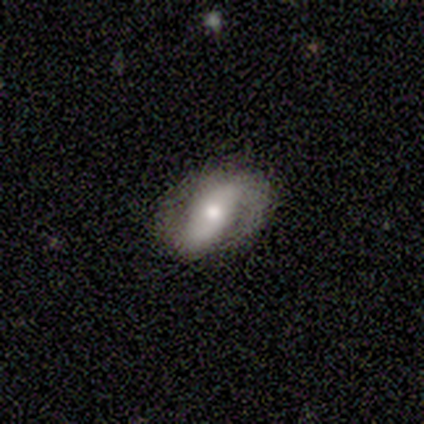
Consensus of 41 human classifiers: Overall: featured or disk (73%). Edge-on disk: no (100%). Bar: strong (50%; no 33%). Spiral arms: yes (87%). Spiral arm count: 2 (81%). Spiral winding: loose (38%; medium 35%). Bulge size: moderate (80%). Merging: none (82%).